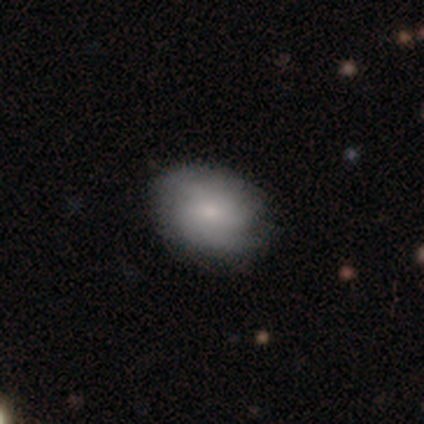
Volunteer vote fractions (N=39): A smooth galaxy with no disk features (59%) that is in between round and cigar-shaped (57%). Merging: none (74%).